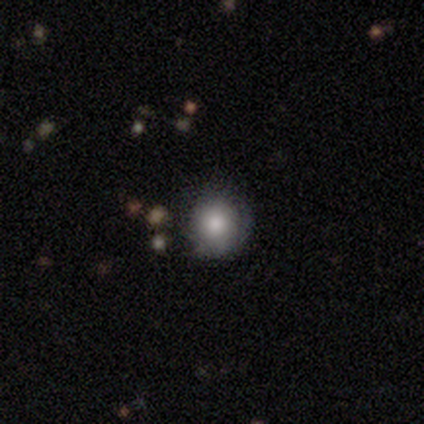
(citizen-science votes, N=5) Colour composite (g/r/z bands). It shows a smooth galaxy with no disk features (100%) that is round (100%). Merging: none (80%).